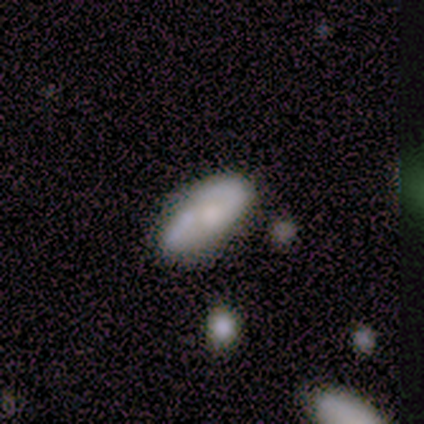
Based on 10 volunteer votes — Smooth or featured? smooth (50%)
How rounded? in between (60%)
Merging? none (78%)